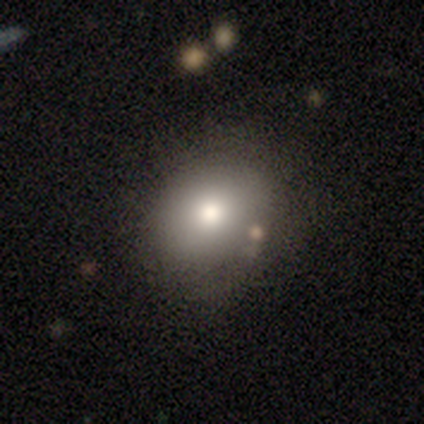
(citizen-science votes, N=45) This is likely a smooth galaxy (69%). How rounded: likely round (68%). Merging: clearly none (82%).